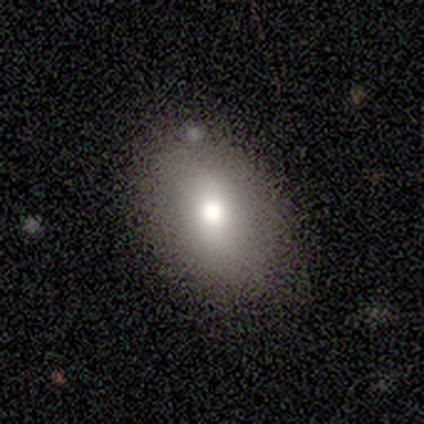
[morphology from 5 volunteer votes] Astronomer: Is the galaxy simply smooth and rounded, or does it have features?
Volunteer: smooth — 100%.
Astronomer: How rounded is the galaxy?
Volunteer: in between — 60% (runner-up: round, 40%).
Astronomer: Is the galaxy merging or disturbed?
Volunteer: none — 60%.